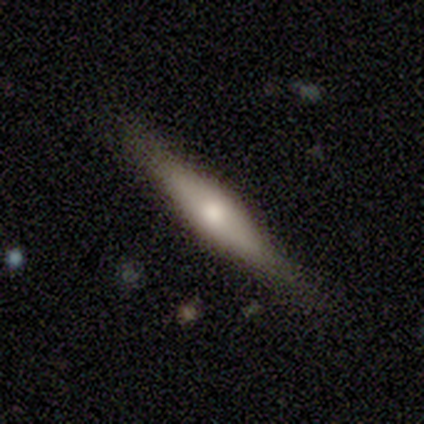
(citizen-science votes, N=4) Smooth or featured?
  - featured or disk: 75% *
  - smooth: 25%
  - star or artifact: 0%
Edge-on disk?
  - yes: 67% *
  - no: 33%
Edge-on bulge?
  - boxy: 50% * (tied)
  - rounded: 50% * (tied)
  - none: 0%
Merging?
  - none: 100% *
  - minor disturbance: 0%
  - major disturbance: 0%
  - merger: 0%